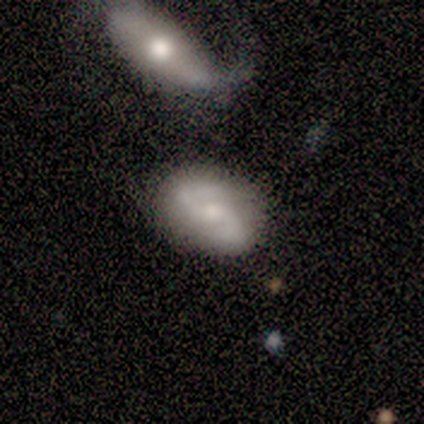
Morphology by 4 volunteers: Smooth or featured?
  - featured or disk: 75% *
  - smooth: 25%
  - star or artifact: 0%
Edge-on disk?
  - no: 100% *
  - yes: 0%
Bar?
  - weak: 67% *
  - no: 33%
  - strong: 0%
Spiral arms?
  - yes: 100% *
  - no: 0%
Spiral winding?
  - tight: 33% * (tied)
  - medium: 33% * (tied)
  - loose: 33% * (tied)
Spiral arm count?
  - 2: 100% *
  - 1: 0%
  - 3: 0%
  - 4: 0%
  - more than 4: 0%
  - can't tell: 0%
Bulge size?
  - moderate: 67% *
  - small: 33%
  - dominant: 0%
  - large: 0%
  - none: 0%
Merging?
  - none: 100% *
  - minor disturbance: 0%
  - major disturbance: 0%
  - merger: 0%